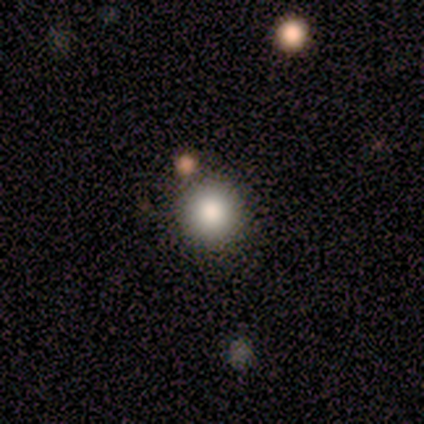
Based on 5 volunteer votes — This appears to be a smooth galaxy with no disk features (100%) that is round (100%). Merging: none (100%).